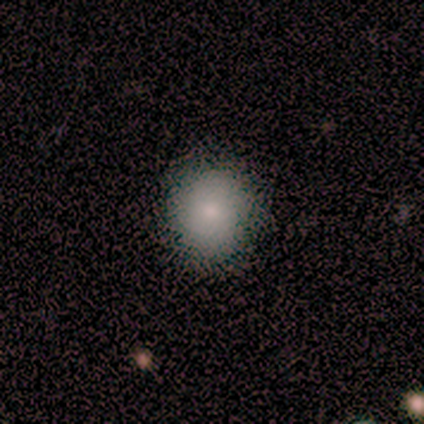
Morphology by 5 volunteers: smooth 60%, star or artifact 40%, featured or disk 0%. Down the decision tree: how rounded — round (67%); merging — none (100%).